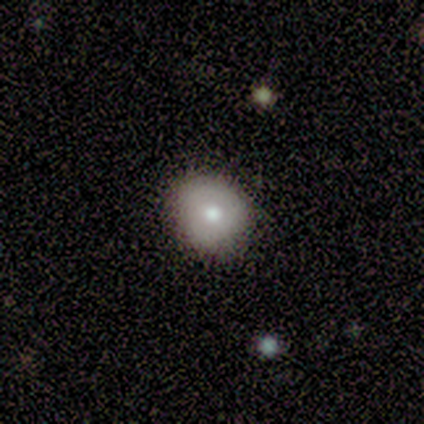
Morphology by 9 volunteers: smooth_or_featured: smooth (p=0.44) [alt: featured or disk p=0.33]
how_rounded: round (p=1.00)
merging: none (p=0.86) [alt: major disturbance p=0.14]